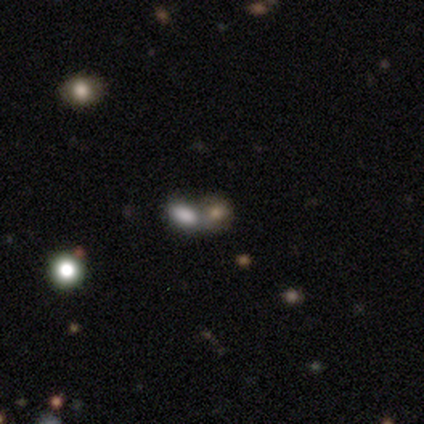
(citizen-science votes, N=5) A smooth galaxy with no disk features (80%) that is in between round and cigar-shaped (75%). Merging: merger (75%).